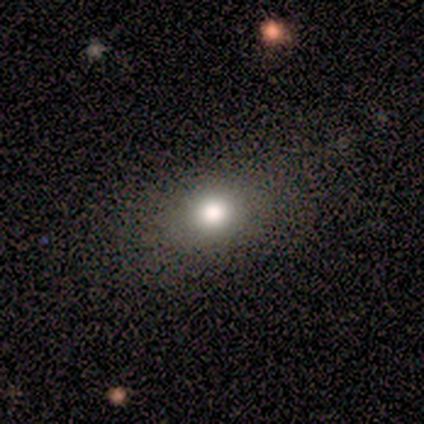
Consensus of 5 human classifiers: Q: Smooth or featured?
A: smooth (60%); runner-up: star or artifact (40%)
Q: How rounded?
A: round (67%); runner-up: in between (33%)
Q: Merging?
A: none (33%); tied with: minor disturbance (33%); major disturbance (33%)